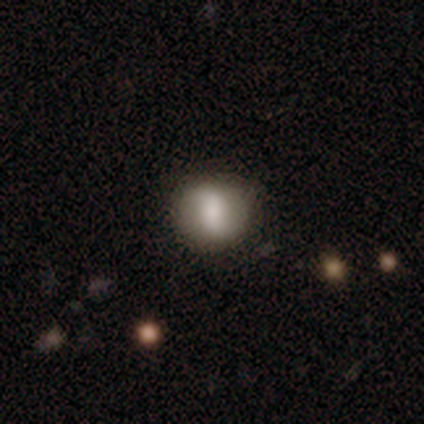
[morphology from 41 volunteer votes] Smooth or featured?
  - featured or disk: 46% *
  - smooth: 37%
  - star or artifact: 17%
Edge-on disk?
  - no: 89% *
  - yes: 11%
Bar?
  - no: 59% *
  - strong: 24%
  - weak: 18%
Spiral arms?
  - yes: 82% *
  - no: 18%
Spiral winding?
  - loose: 79% *
  - medium: 14%
  - tight: 7%
Spiral arm count?
  - 2: 100% *
  - 1: 0%
  - 3: 0%
  - 4: 0%
  - more than 4: 0%
  - can't tell: 0%
Bulge size?
  - large: 41% *
  - moderate: 35%
  - small: 18%
  - none: 6%
  - dominant: 0%
Merging?
  - none: 85% *
  - minor disturbance: 6%
  - merger: 6%
  - major disturbance: 3%